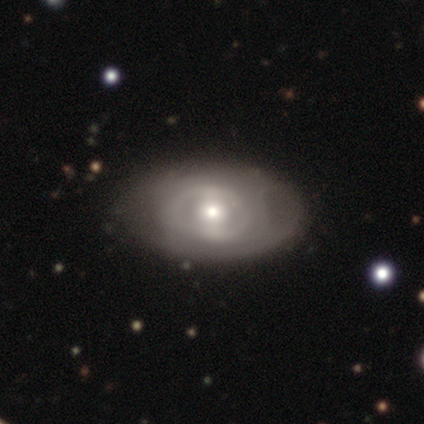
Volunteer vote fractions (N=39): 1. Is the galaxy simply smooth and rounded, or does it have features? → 69% featured or disk, 23% smooth, 8% star or artifact.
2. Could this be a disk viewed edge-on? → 89% no, 11% yes.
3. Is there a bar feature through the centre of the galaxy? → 54% no, 38% weak, 8% strong.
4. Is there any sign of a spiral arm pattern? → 67% no, 33% yes.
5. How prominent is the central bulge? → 62% moderate, 29% small, 8% large, 0% dominant, 0% none.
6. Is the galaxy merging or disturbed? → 81% none, 17% minor disturbance, 3% merger, 0% major disturbance.